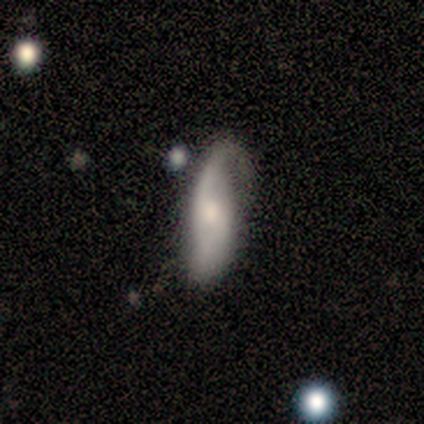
A smooth galaxy with no disk features (50%, tied with featured or disk) that is in between round and cigar-shaped (67%).

Vote fractions:
- Smooth or featured? smooth: 50% (tied) / featured or disk: 50% (tied) / star or artifact: 0%
- How rounded? in between: 67% / cigar-shaped: 33% / round: 0%
- Merging? none: 50% / major disturbance: 33% / minor disturbance: 17% / merger: 0%